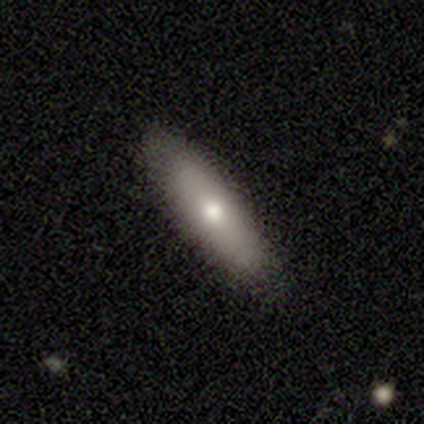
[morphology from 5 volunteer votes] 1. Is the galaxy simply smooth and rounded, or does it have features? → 80% smooth, 20% star or artifact, 0% featured or disk.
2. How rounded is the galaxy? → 100% in between, 0% round, 0% cigar-shaped.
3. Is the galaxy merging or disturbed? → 100% none, 0% minor disturbance, 0% major disturbance, 0% merger.